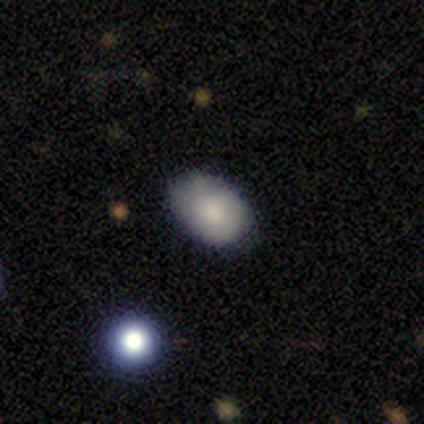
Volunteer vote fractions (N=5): A smooth galaxy with no disk features (60%) that is in between round and cigar-shaped (100%). Merging: none (100%).